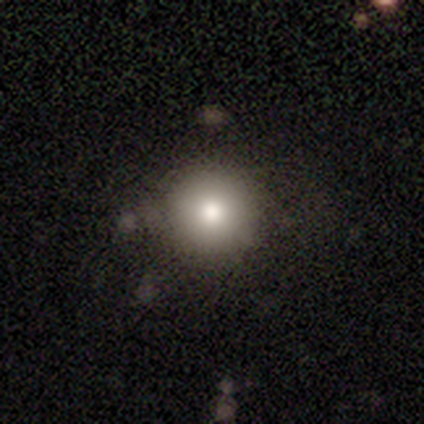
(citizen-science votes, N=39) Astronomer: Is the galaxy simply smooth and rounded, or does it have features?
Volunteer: smooth — 72%.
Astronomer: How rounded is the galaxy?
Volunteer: round — 100%.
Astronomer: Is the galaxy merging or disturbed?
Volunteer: none — 81%.